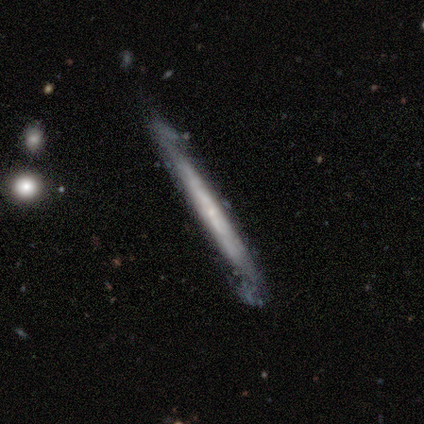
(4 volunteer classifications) Overall: featured or disk (75%). Edge-on disk: yes (67%; no 33%). Edge-on bulge: none (100%). Merging: none (75%).